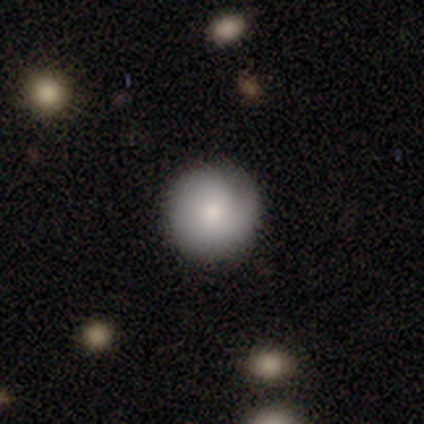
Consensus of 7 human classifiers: smooth 71%, featured or disk 14%, star or artifact 14%. Down the decision tree: how rounded — round (100%); merging — none (83%).